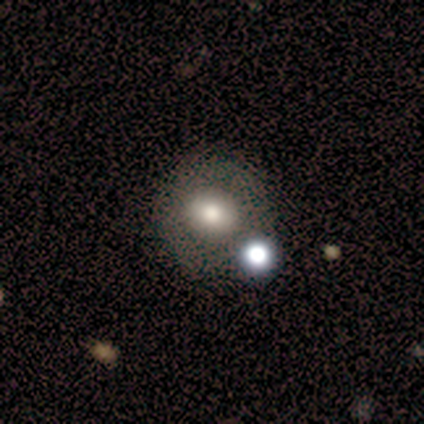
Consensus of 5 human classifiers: Smooth or featured? smooth (40%, tied with star or artifact)
How rounded? round (100%)
Merging? none (67%)